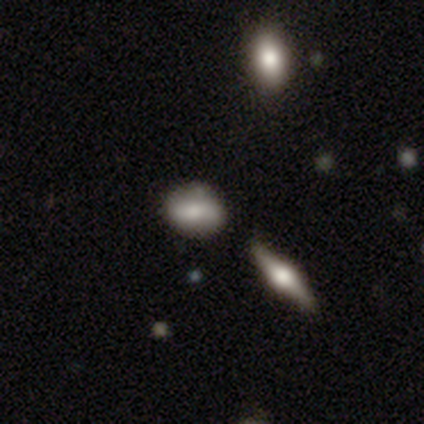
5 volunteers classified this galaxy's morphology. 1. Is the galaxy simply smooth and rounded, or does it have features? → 40% smooth (tied), 40% featured or disk (tied), 20% star or artifact.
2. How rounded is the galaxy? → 50% round (tied), 50% in between (tied), 0% cigar-shaped.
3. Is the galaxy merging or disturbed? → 50% none (tied), 50% minor disturbance (tied), 0% major disturbance, 0% merger.